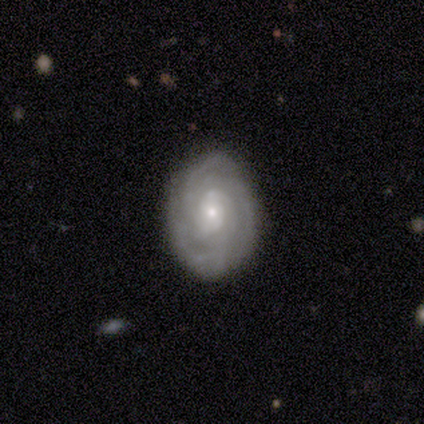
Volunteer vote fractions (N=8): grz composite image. It shows a featured or disk galaxy (88%) with a weak bar (71%), 3 (50%) tight (83%) spiral arms (86%) and a small central bulge (86%). Merging: none (88%).